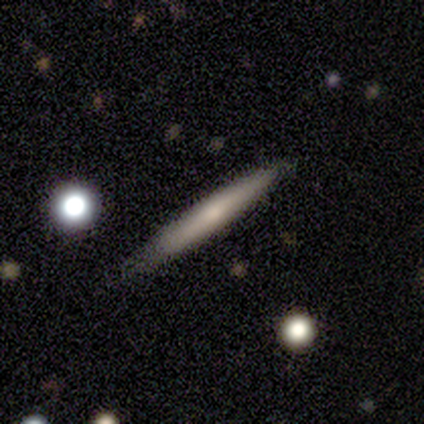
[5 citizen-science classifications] A smooth galaxy with no disk features (80%) that is cigar-shaped (100%). Merging: none (100%).